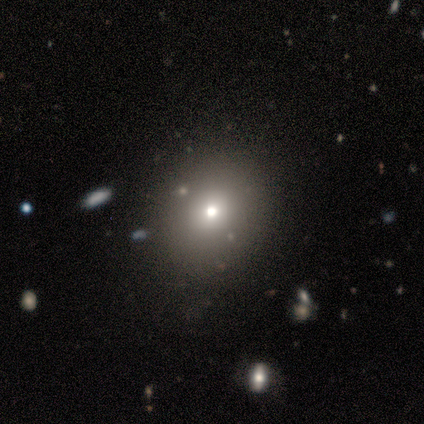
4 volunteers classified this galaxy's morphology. Volunteers were most divided on "smooth or featured" (2-way tie): smooth: 50%, star or artifact: 50%, featured or disk: 0%. More confident: how rounded — in between (100%); merging — none (100%).